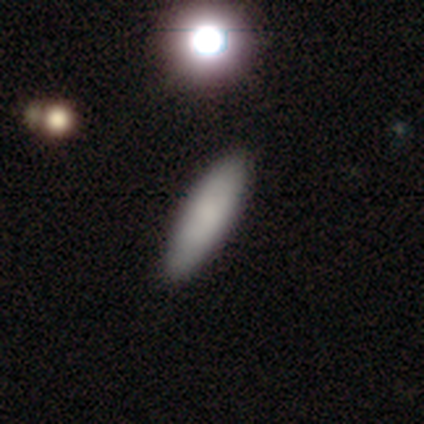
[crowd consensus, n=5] smooth-or-featured: smooth: 100% | featured or disk: 0% | star or artifact: 0%
  how-rounded: cigar-shaped: 80% | in between: 20% | round: 0%
  merging: none: 100% | minor disturbance: 0% | major disturbance: 0% | merger: 0%